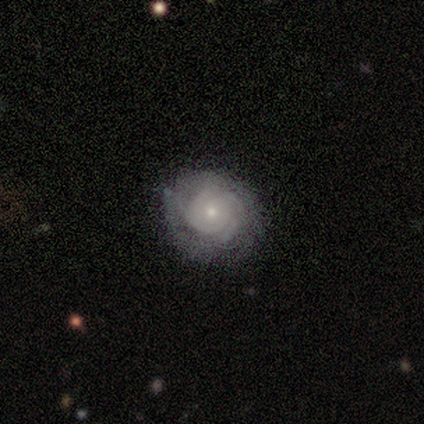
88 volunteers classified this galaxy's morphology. A featured or disk galaxy (72%) with no bar (79%), tight (81%) spiral arms (93%) and a small central bulge (69%). Merging: none (81%).